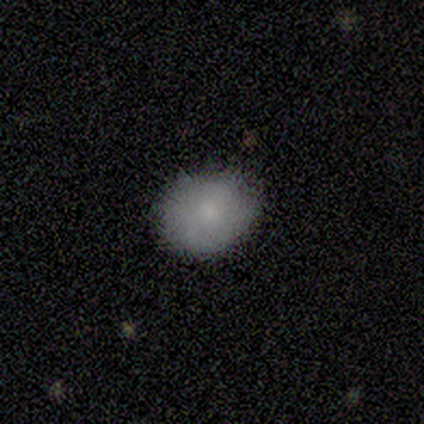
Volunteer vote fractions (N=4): smooth 100%, featured or disk 0%, star or artifact 0%. Down the decision tree: how rounded — round (75%); merging — none (100%).